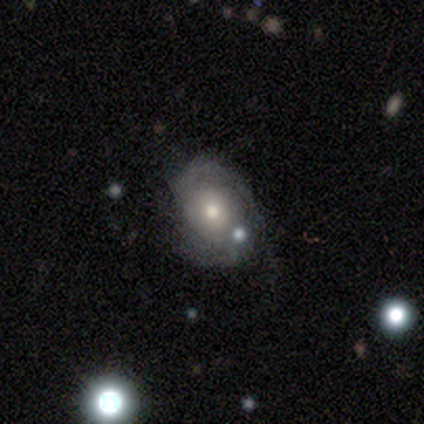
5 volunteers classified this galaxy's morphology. Smooth or featured? featured or disk (80%)
Edge-on disk? no (100%)
Bar? no (75%)
Spiral arms? yes (100%)
Spiral winding? tight (50%, tied with loose)
Spiral arm count? 2 (100%)
Bulge size? moderate (50%)
Merging? none (80%)